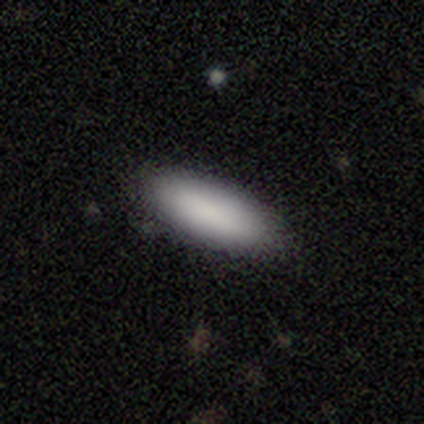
Volunteers were most divided on "how rounded": in between: 71%, cigar-shaped: 29%, round: 0%. More confident: smooth or featured — smooth (84%); merging — none (80%).